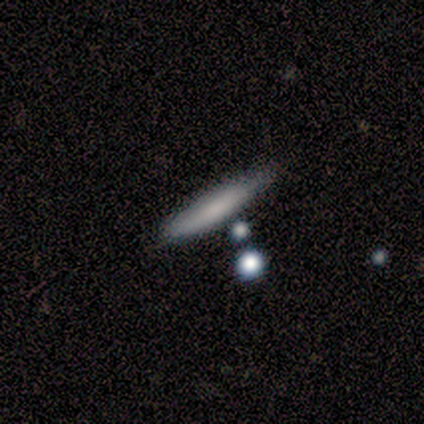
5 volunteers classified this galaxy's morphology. Smooth or featured: smooth — 100%
How rounded: cigar-shaped — 100%
Merging: none — 80% (minor disturbance — 20%)